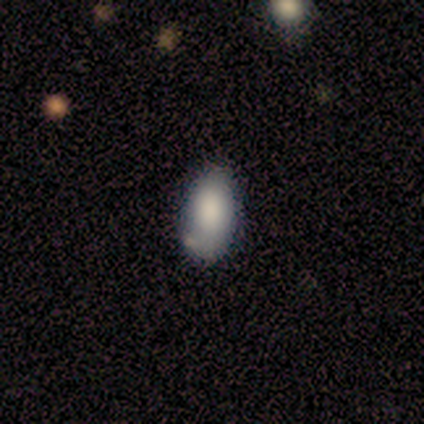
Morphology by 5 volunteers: This is clearly a smooth galaxy (100%). How rounded: clearly in between (80%). Merging: marginally none (40%, tied with minor disturbance).